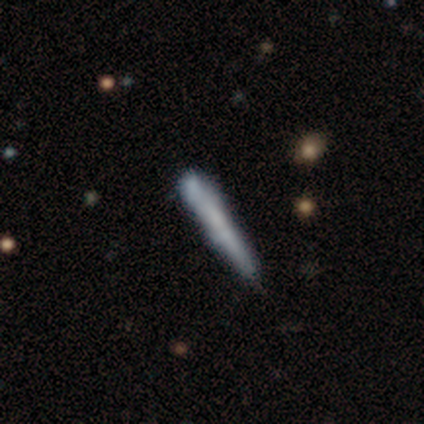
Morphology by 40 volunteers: A smooth galaxy with no disk features (55%) that is cigar-shaped (95%). Merging: none (38%).